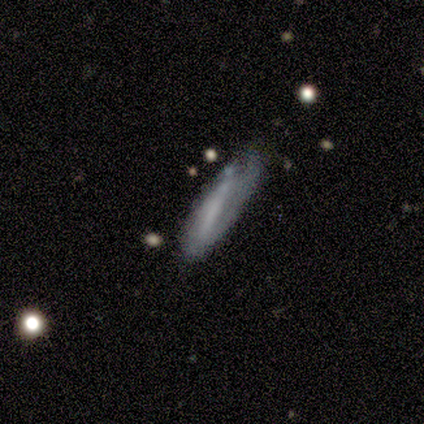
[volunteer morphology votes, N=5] Smooth or featured? smooth (40%, tied with featured or disk)
How rounded? in between (50%, tied with cigar-shaped)
Merging? none (75%)